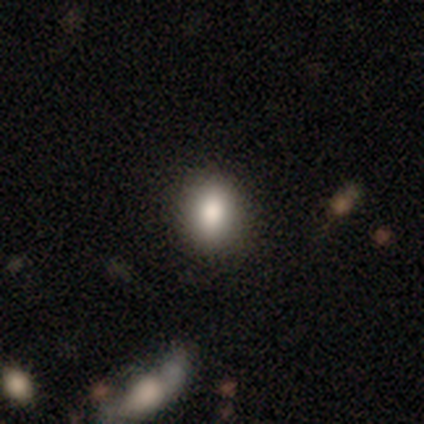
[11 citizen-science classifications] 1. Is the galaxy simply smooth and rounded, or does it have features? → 82% smooth, 9% featured or disk, 9% star or artifact.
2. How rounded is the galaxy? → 56% in between, 44% round, 0% cigar-shaped.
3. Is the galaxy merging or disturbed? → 70% none, 20% minor disturbance, 10% major disturbance, 0% merger.